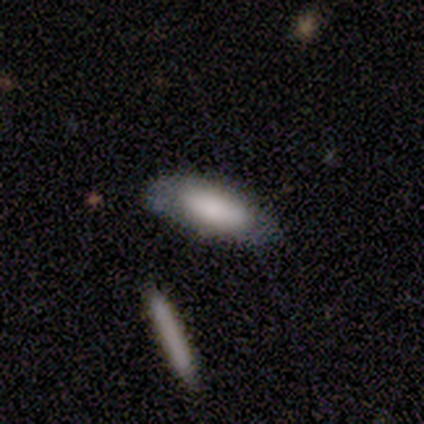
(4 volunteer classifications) This appears to be a smooth galaxy with no disk features (75%) that is in between round and cigar-shaped (67%). Merging: none (100%).